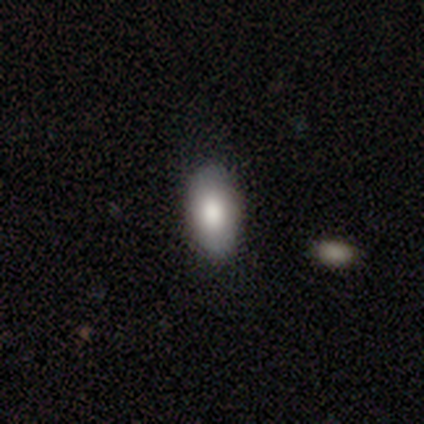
Q: Smooth or featured?
A: smooth (79%); runner-up: featured or disk (15%)
Q: How rounded?
A: in between (95%); runner-up: round (3%)
Q: Merging?
A: none (53%); runner-up: minor disturbance (9%)